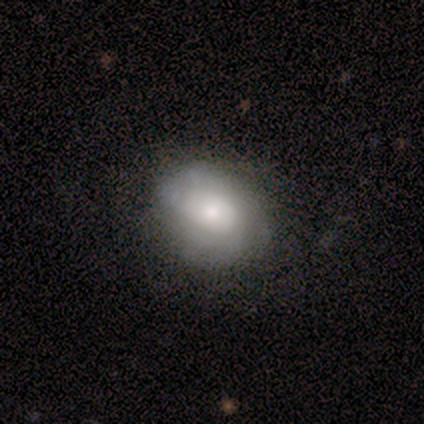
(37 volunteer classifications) Smooth or featured? smooth (46%, tied with featured or disk)
How rounded? in between (53%)
Merging? none (47%)